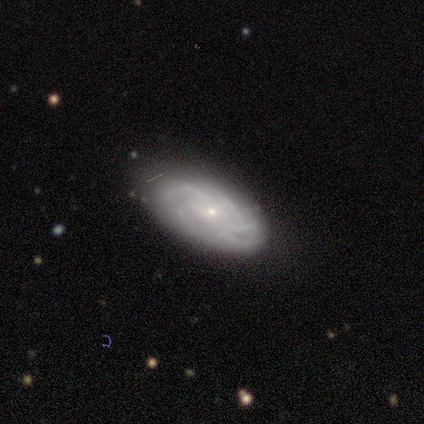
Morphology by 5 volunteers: Overall: featured or disk (60%; smooth 40%). Edge-on disk: no (100%). Bar: no (67%; weak 33%). Spiral arms: yes (100%). Spiral arm count: can't tell (67%; 4 33%). Spiral winding: loose (67%; medium 33%). Bulge size: small (67%; moderate 33%). Merging: none (80%).